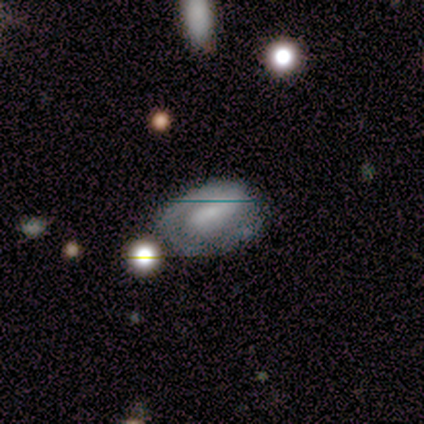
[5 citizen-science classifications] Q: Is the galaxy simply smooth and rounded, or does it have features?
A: featured or disk — 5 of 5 (100%).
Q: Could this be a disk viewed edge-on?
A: no — 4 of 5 (80%).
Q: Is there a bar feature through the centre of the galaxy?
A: weak — 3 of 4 (75%).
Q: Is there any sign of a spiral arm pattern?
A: yes — 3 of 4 (75%).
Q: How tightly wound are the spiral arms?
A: tight — 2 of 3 (67%).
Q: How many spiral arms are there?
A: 1 — 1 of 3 (33%, tied with 2 and can't tell).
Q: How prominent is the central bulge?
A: moderate — 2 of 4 (50%).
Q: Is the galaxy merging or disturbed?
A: none — 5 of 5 (100%).